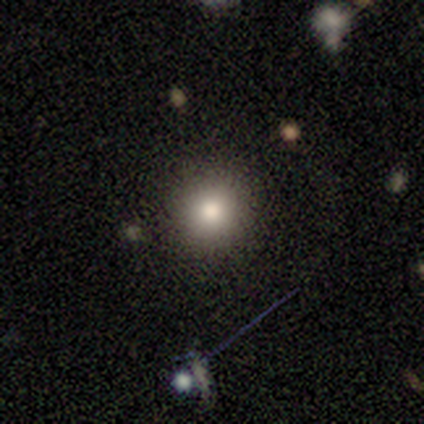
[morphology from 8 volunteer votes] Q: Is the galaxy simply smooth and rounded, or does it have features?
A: smooth — 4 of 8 (50%).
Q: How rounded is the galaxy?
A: round — 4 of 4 (100%).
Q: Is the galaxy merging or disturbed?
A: none — 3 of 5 (60%).